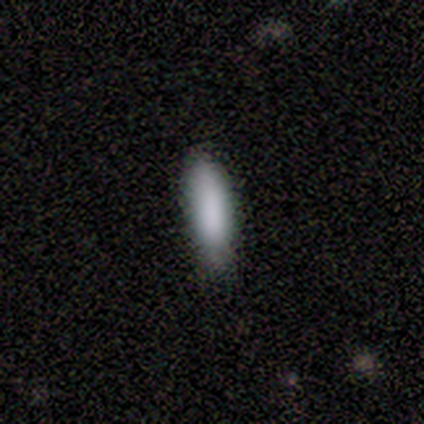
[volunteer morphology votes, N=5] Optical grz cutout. It shows a smooth galaxy with no disk features (100%) that is cigar-shaped (60%). Merging: none (60%).